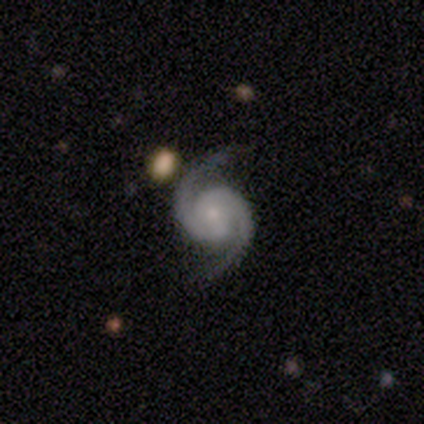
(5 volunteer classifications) Smooth or featured: featured or disk — 100%
Edge-on disk: no — 100%
Bar: no — 60% (strong — 20%)
Spiral arms: yes — 100%
Spiral winding: tight — 60% (medium — 40%)
Spiral arm count: 2 — 100%
Bulge size: small — 100%
Merging: none — 100%